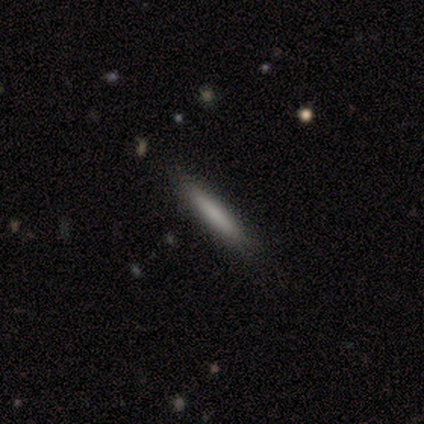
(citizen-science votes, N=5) Smooth or featured? smooth (100%)
How rounded? cigar-shaped (100%)
Merging? none (60%)